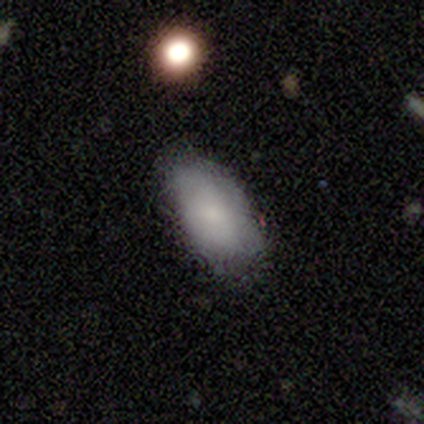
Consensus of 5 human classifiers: Morphology: type=smooth (100%); roundness=in between (100%); merging=none (100%).